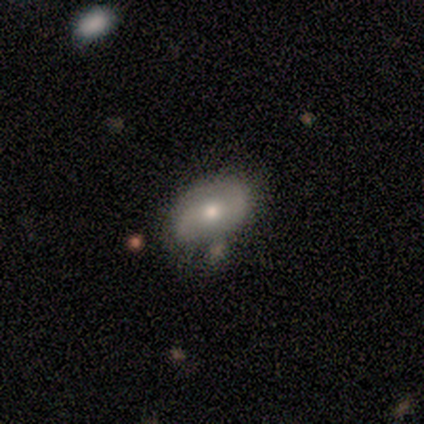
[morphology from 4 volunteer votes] featured or disk 100%, smooth 0%, star or artifact 0%. Down the decision tree: edge-on disk — no (100%); bar — no (50%); spiral arms — yes (50%, tied with no); spiral arm count — 2 (100%); spiral winding — tight (50%, tied with loose); bulge size — moderate (50%, tied with small); merging — none (75%).